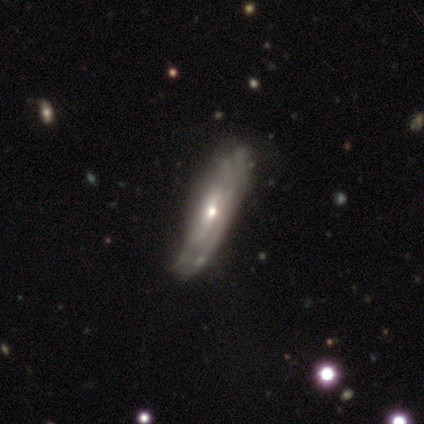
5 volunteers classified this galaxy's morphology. A featured or disk galaxy (60%) viewed edge-on (67%) with a rounded central bulge (100%).

Vote fractions:
- Smooth or featured? featured or disk: 60% / smooth: 40% / star or artifact: 0%
- Edge-on disk? yes: 67% / no: 33%
- Edge-on bulge? rounded: 100% / boxy: 0% / none: 0%
- Merging? none: 40% (tied) / minor disturbance: 40% (tied) / major disturbance: 20% / merger: 0%